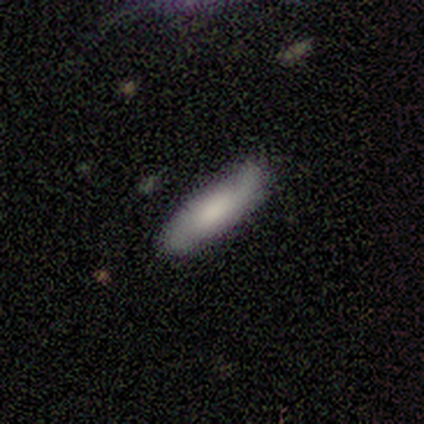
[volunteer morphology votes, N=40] type=featured or disk (50%); edge-on=no (75%); bar=no (67%); spiral arms=yes (100%); winding=medium (53%); arm count=2 (87%); bulge=large (40%, tied with moderate); merging=none (79%).